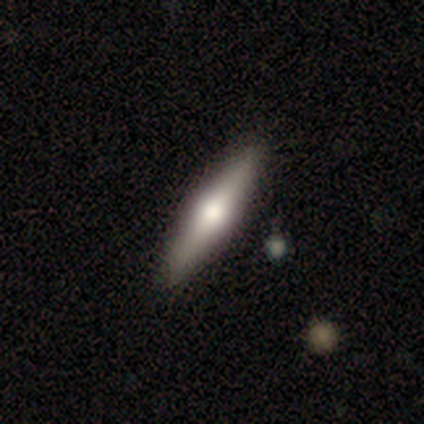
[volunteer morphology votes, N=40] Q: Smooth or featured?
A: featured or disk (50%); runner-up: smooth (45%)
Q: Edge-on disk?
A: yes (100%)
Q: Edge-on bulge?
A: rounded (90%); runner-up: boxy (10%)
Q: Merging?
A: none (92%); runner-up: minor disturbance (5%)